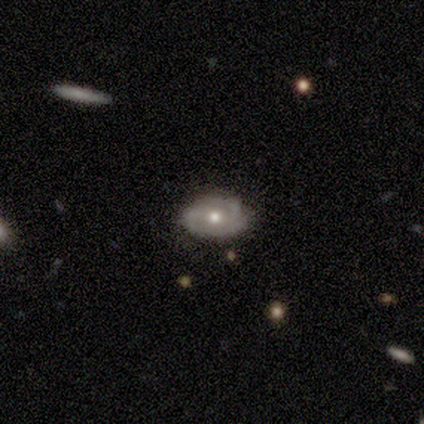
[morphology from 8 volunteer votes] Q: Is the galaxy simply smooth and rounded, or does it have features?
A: featured or disk — 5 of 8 (62%).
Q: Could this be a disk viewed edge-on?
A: no — 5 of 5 (100%).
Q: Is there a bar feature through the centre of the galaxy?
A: no — 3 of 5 (60%).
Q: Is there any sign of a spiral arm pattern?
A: yes — 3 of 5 (60%).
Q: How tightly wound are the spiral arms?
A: tight — 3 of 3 (100%).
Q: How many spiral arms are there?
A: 2 — 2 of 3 (67%).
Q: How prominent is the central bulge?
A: moderate — 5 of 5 (100%).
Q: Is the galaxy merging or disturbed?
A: none — 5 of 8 (62%).